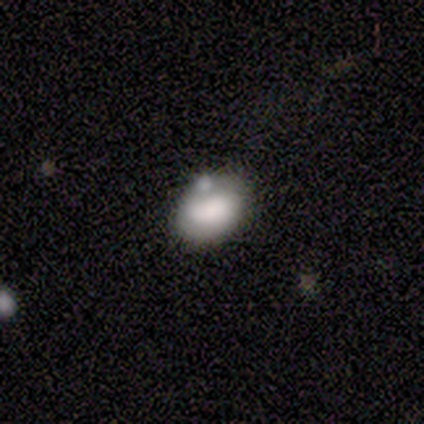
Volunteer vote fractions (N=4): Smooth or featured?
  - smooth: 75% *
  - featured or disk: 25%
  - star or artifact: 0%
How rounded?
  - in between: 67% *
  - round: 33%
  - cigar-shaped: 0%
Merging?
  - none: 75% *
  - minor disturbance: 25%
  - major disturbance: 0%
  - merger: 0%